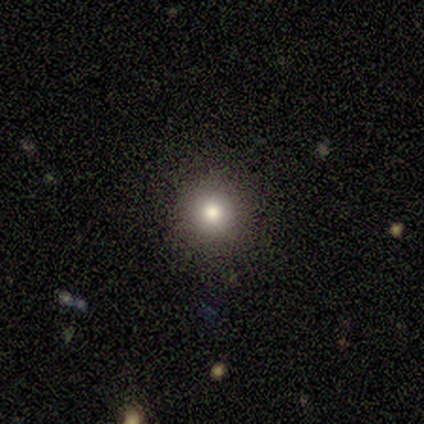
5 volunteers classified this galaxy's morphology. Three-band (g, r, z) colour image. It shows a smooth galaxy with no disk features (100%) that is round (100%). Merging: none (100%).